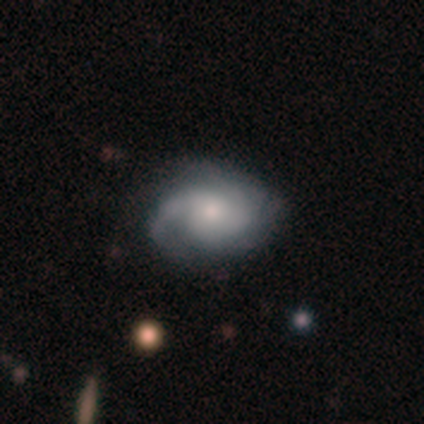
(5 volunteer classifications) smooth_or_featured: featured or disk (p=0.80) [alt: smooth p=0.20]
disk_edge_on: no (p=1.00)
bar: weak (p=0.50) [tied with: no p=0.50]
has_spiral_arms: yes (p=1.00)
spiral_winding: loose (p=0.50) [alt: tight p=0.25]
spiral_arm_count: 2 (p=0.50) [alt: 3 p=0.25]
bulge_size: small (p=0.50) [alt: dominant p=0.25]
merging: none (p=1.00)